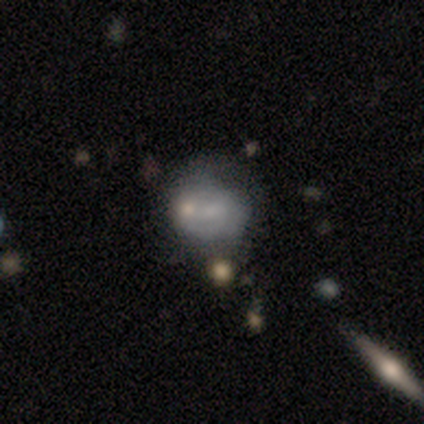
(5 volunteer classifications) smooth_or_featured: smooth (p=0.40) [tied with: featured or disk p=0.40]
how_rounded: in between (p=1.00)
merging: minor disturbance (p=0.75) [alt: merger p=0.25]